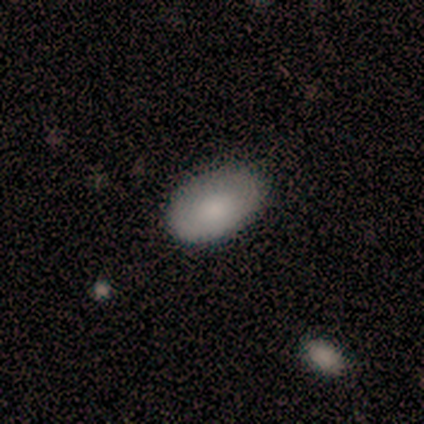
Smooth or featured? 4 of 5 (80%) said smooth. How rounded? 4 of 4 (100%) said in between. Merging? 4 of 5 (80%) said none.